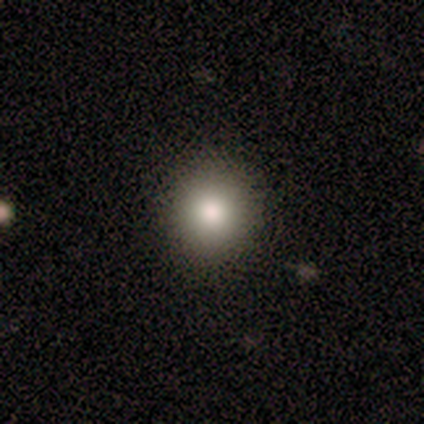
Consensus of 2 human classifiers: smooth 100%, featured or disk 0%, star or artifact 0%. Down the decision tree: how rounded — round (100%); merging — none (100%).